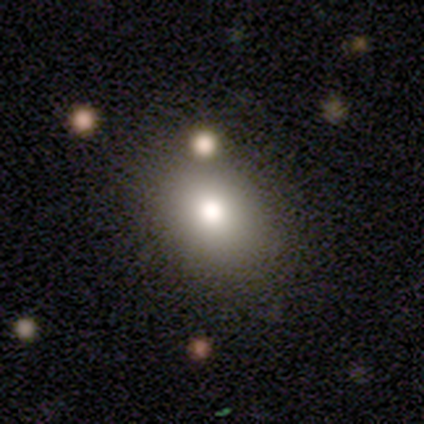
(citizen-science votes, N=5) smooth 80%, featured or disk 20%, star or artifact 0%. Down the decision tree: how rounded — in between (75%); merging — none (80%).